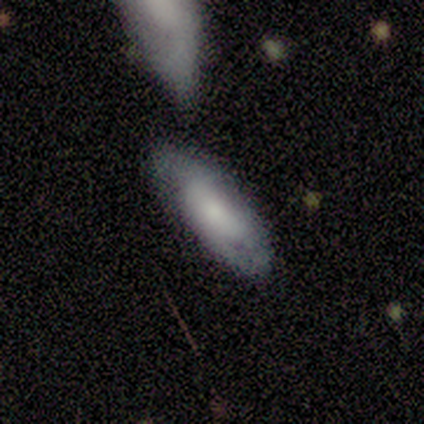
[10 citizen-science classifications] Q: Smooth or featured?
A: smooth (70%); runner-up: featured or disk (30%)
Q: How rounded?
A: in between (71%); runner-up: cigar-shaped (29%)
Q: Merging?
A: none (70%); runner-up: minor disturbance (10%)